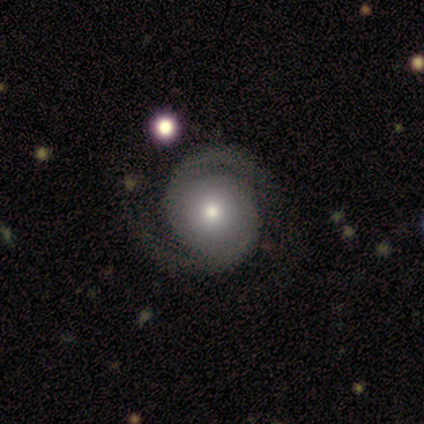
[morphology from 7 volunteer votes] smooth-or-featured: featured or disk: 71% | smooth: 29% | star or artifact: 0%
  disk-edge-on: no: 100% | yes: 0%
    bar: no: 80% | strong: 20% | weak: 0%
    has-spiral-arms: yes: 100% | no: 0%
      spiral-winding: medium: 60% | tight: 20% | loose: 20%
      spiral-arm-count: 2: 100% | 1: 0% | 3: 0% | 4: 0% | more than 4: 0% | can't tell: 0%
    bulge-size: moderate: 80% | small: 20% | dominant: 0% | large: 0% | none: 0%
  merging: none: 86% | merger: 14% | minor disturbance: 0% | major disturbance: 0%